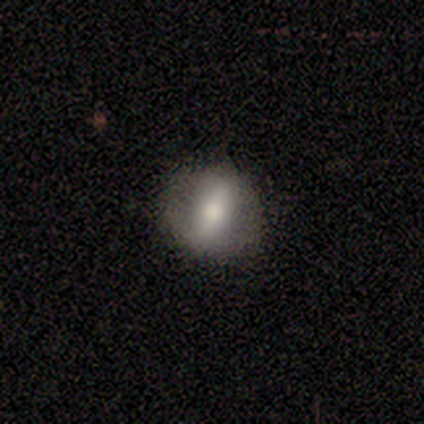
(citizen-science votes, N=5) featured or disk 60%, smooth 40%, star or artifact 0%. Down the decision tree: edge-on disk — no (67%); bar — strong (50%, tied with no); spiral arms — yes (50%, tied with no); spiral arm count — can't tell (100%); spiral winding — loose (100%); bulge size — moderate (50%, tied with small); merging — none (80%).